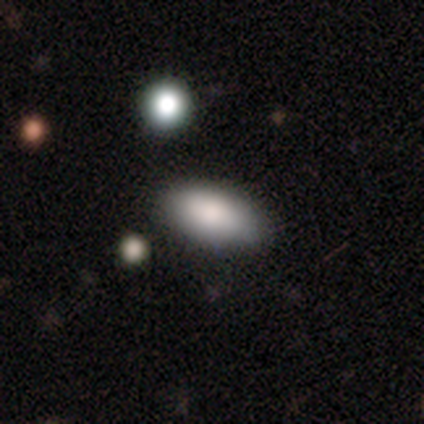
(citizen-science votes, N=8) Smooth or featured? smooth (88%)
How rounded? in between (100%)
Merging? none (75%)